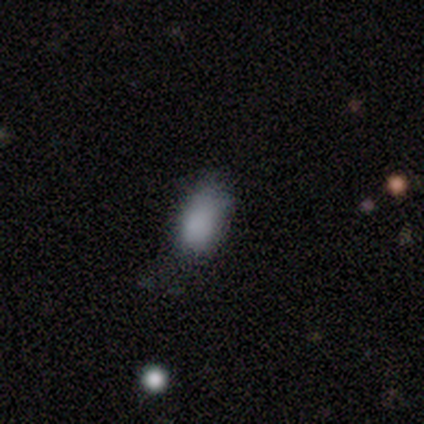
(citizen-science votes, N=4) smooth_or_featured: smooth (p=1.00)
how_rounded: in between (p=1.00)
merging: minor disturbance (p=1.00)